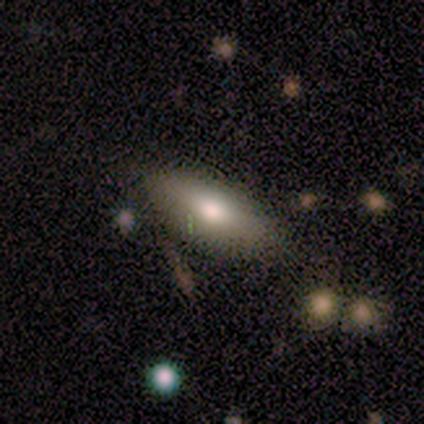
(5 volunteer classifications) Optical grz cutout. It shows a featured or disk galaxy (60%) with no bar (100%), no spiral arms (100%) and a large central bulge (67%). Merging: none (60%).